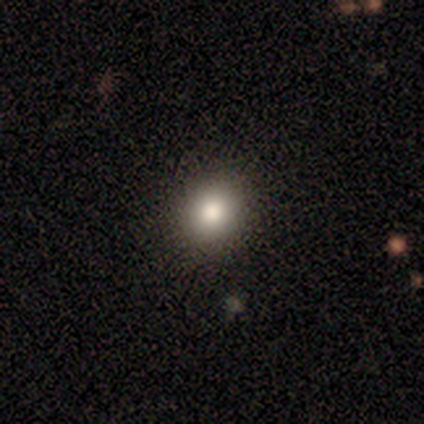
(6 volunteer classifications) Smooth or featured?
  - smooth: 100% *
  - featured or disk: 0%
  - star or artifact: 0%
How rounded?
  - round: 83% *
  - in between: 17%
  - cigar-shaped: 0%
Merging?
  - none: 100% *
  - minor disturbance: 0%
  - major disturbance: 0%
  - merger: 0%